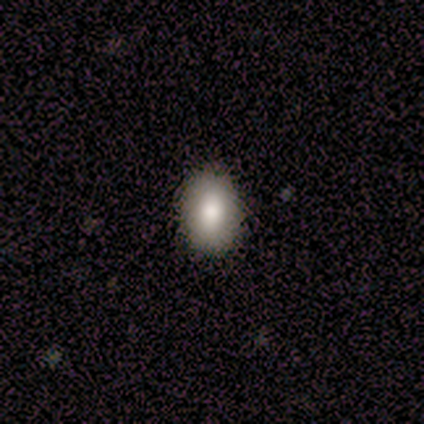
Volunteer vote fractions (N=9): smooth-or-featured: smooth: 89% | featured or disk: 11% | star or artifact: 0%
  how-rounded: in between: 88% | round: 12% | cigar-shaped: 0%
  merging: none: 89% | minor disturbance: 11% | major disturbance: 0% | merger: 0%